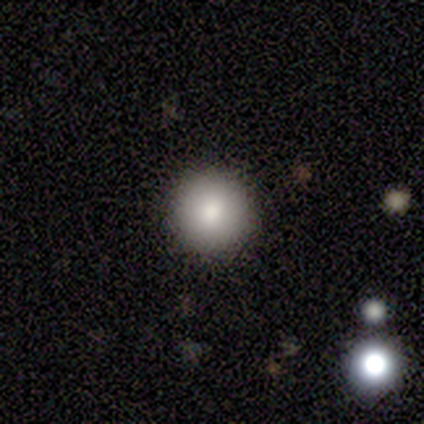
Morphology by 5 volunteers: Smooth or featured? smooth (80%)
How rounded? round (75%)
Merging? none (100%)